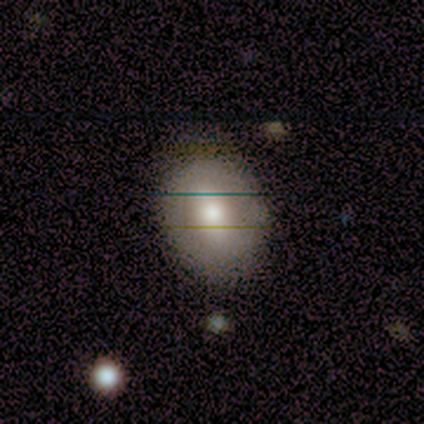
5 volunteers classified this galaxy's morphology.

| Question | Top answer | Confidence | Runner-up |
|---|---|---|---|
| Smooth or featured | smooth | 40% | tied: featured or disk (40%) |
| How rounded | round | 50% | tied: in between (50%) |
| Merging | none | 50% | tied: minor disturbance (50%) |